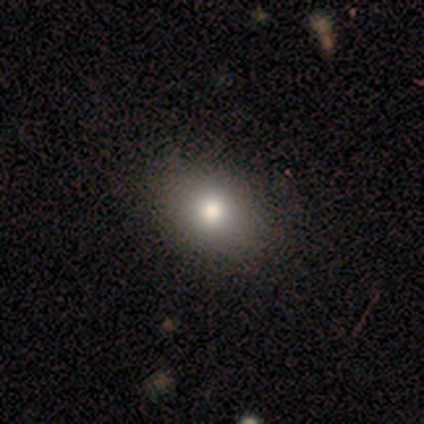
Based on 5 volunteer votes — Volunteers were most divided on "smooth or featured": star or artifact: 80%, smooth: 20%, featured or disk: 0%.